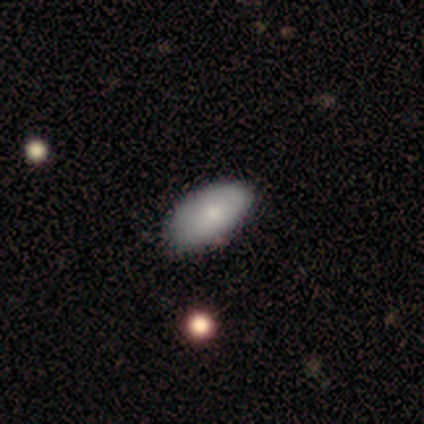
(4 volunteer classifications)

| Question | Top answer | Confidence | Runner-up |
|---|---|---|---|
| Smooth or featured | smooth | 75% | featured or disk (25%) |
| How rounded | in between | 100% | — |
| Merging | none | 75% | minor disturbance (25%) |